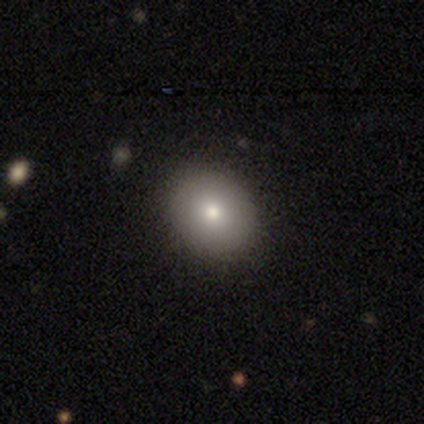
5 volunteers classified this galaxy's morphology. type=smooth (100%); roundness=round (60%); merging=none (100%).